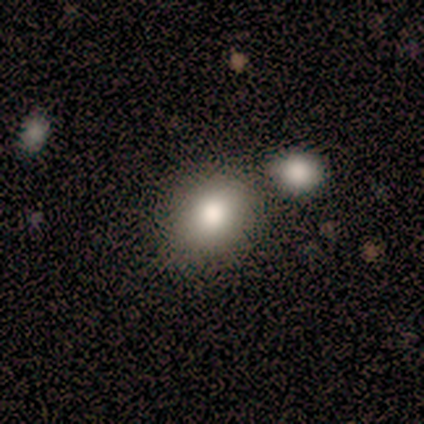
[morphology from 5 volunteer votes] Smooth or featured: smooth — 80% (featured or disk — 20%)
How rounded: round — 50% (tied with in between — 50%)
Merging: none — 60% (merger — 40%)